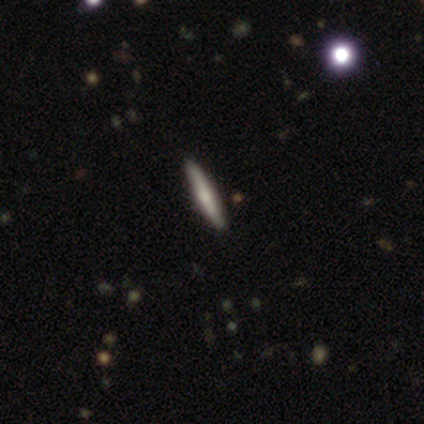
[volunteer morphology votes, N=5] This appears to be a featured or disk galaxy (60%) viewed edge-on (100%) with a rounded central bulge (100%). Merging: none (80%).